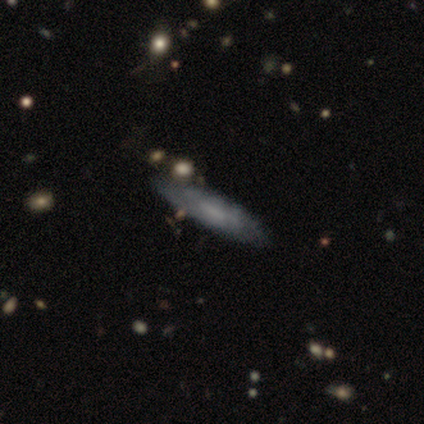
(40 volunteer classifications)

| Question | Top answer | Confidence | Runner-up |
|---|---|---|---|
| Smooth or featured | featured or disk | 50% | smooth (40%) |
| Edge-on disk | yes | 55% | no (45%) |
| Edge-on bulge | none | 82% | boxy (9%) |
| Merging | none | 81% | minor disturbance (11%) |